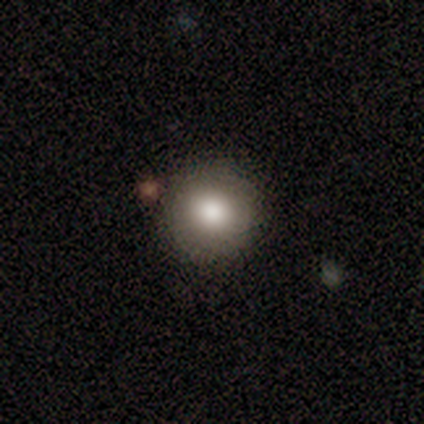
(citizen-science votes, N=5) This is clearly a smooth galaxy (100%). How rounded: clearly round (100%). Merging: clearly none (80%).